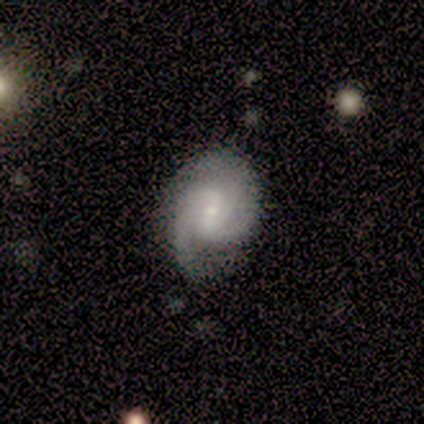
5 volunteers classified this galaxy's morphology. Smooth or featured?
  - featured or disk: 60% *
  - smooth: 40%
  - star or artifact: 0%
Edge-on disk?
  - no: 100% *
  - yes: 0%
Bar?
  - weak: 67% *
  - no: 33%
  - strong: 0%
Spiral arms?
  - yes: 100% *
  - no: 0%
Spiral winding?
  - medium: 67% *
  - tight: 33%
  - loose: 0%
Spiral arm count?
  - 2: 67% *
  - 3: 33%
  - 1: 0%
  - 4: 0%
  - more than 4: 0%
  - can't tell: 0%
Bulge size?
  - small: 100% *
  - dominant: 0%
  - large: 0%
  - moderate: 0%
  - none: 0%
Merging?
  - none: 60% *
  - major disturbance: 40%
  - minor disturbance: 0%
  - merger: 0%